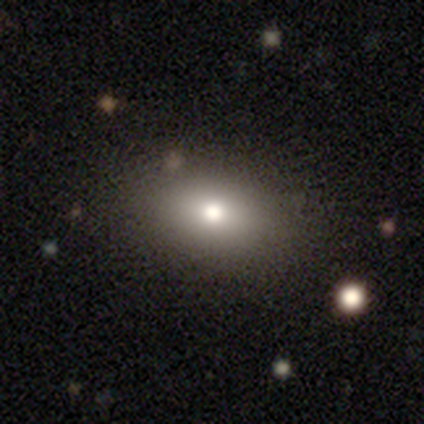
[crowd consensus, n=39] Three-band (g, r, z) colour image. It shows a smooth galaxy with no disk features (74%) that is in between round and cigar-shaped (76%). Merging: none (94%).